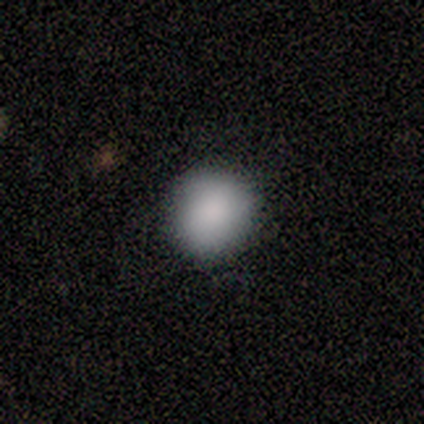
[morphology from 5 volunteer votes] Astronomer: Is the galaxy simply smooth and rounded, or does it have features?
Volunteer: smooth — 100%.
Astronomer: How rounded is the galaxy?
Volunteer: round — 100%.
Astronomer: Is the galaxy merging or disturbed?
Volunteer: none — 80%.